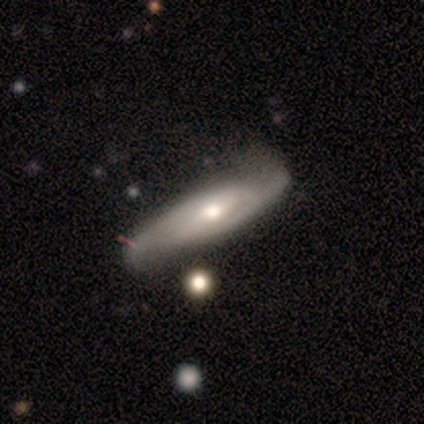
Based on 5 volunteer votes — Morphology: type=smooth (60%); roundness=cigar-shaped (67%); merging=none (80%).